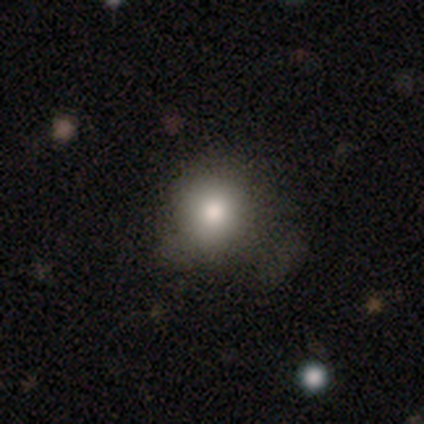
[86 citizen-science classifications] Smooth or featured?
  - smooth: 74% *
  - featured or disk: 13%
  - star or artifact: 13%
How rounded?
  - round: 84% *
  - in between: 16%
  - cigar-shaped: 0%
Merging?
  - none: 60% *
  - minor disturbance: 25%
  - major disturbance: 13%
  - merger: 1%